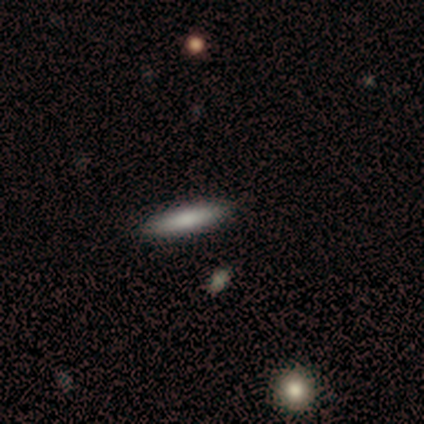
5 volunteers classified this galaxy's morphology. smooth-or-featured: smooth: 80% | featured or disk: 20% | star or artifact: 0%
  how-rounded: cigar-shaped: 100% | round: 0% | in between: 0%
  merging: none: 60% | minor disturbance: 20% | merger: 20% | major disturbance: 0%